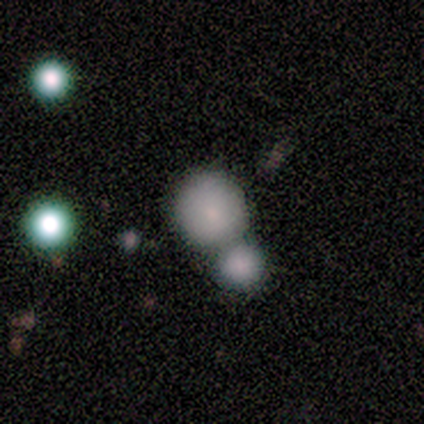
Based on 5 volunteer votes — Smooth or featured: smooth — 60% (featured or disk — 20%)
How rounded: round — 100%
Merging: none — 50% (tied with merger — 50%)